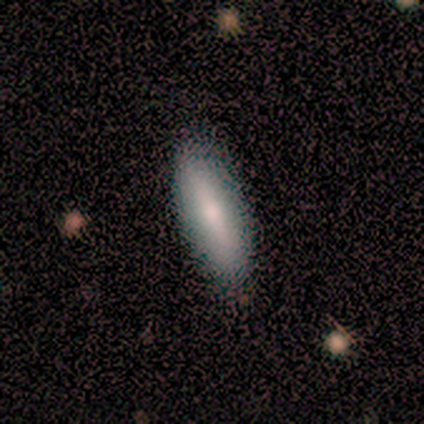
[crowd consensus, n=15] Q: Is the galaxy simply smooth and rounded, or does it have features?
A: smooth — 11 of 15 (73%).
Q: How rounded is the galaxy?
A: cigar-shaped — 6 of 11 (55%).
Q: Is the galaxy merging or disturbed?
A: none — 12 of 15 (80%).